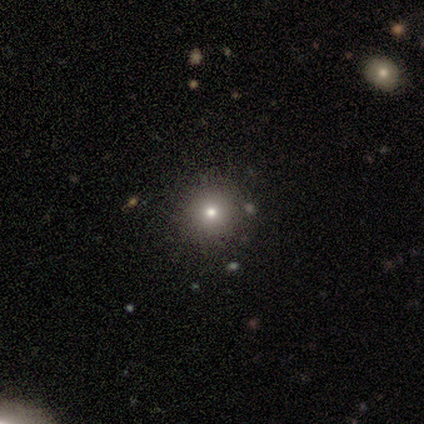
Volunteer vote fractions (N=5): star or artifact 60%, smooth 20%, featured or disk 20%.